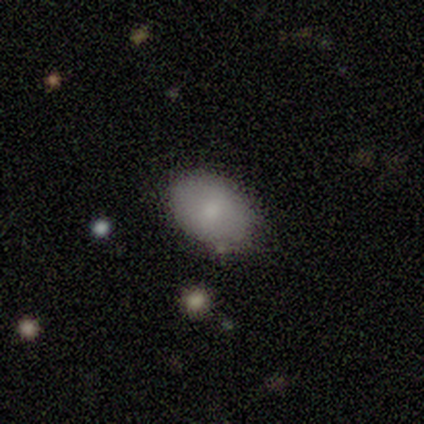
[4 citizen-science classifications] Overall: smooth (75%). How rounded: in between (100%). Merging: none (100%).